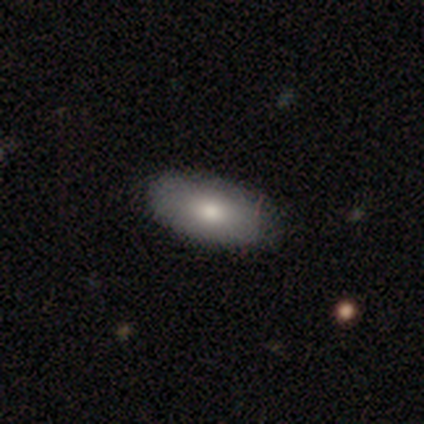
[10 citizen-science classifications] This is likely a smooth galaxy (70%). How rounded: clearly in between (100%). Merging: clearly none (80%).